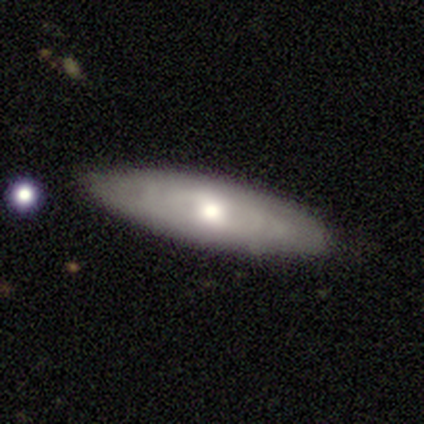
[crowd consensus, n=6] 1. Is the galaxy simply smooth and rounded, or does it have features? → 67% featured or disk, 33% smooth, 0% star or artifact.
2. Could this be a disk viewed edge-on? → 75% yes, 25% no.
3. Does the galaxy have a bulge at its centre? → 67% rounded, 33% none, 0% boxy.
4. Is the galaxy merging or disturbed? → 50% none, 33% minor disturbance, 17% merger, 0% major disturbance.